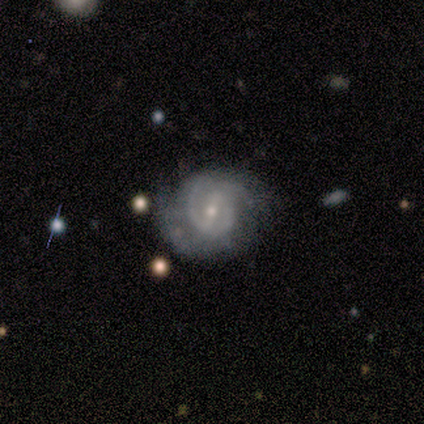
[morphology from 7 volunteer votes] This appears to be a featured or disk galaxy (100%) with a strong bar (57%), medium (57%) spiral arms (100%) and a small central bulge (86%). Merging: minor disturbance (57%).